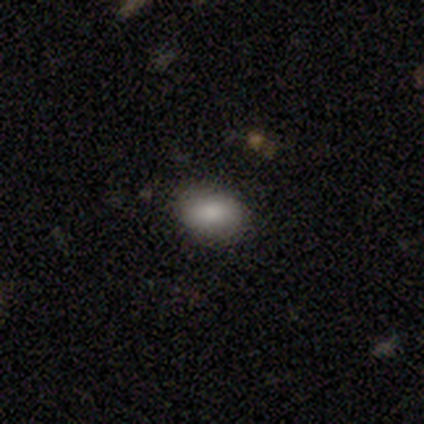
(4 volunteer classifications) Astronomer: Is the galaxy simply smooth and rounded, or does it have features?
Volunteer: smooth — 100%.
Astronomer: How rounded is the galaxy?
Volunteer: in between — 100%.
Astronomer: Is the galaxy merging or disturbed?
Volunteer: none — 100%.